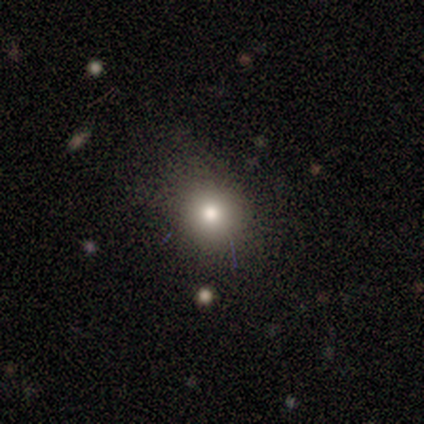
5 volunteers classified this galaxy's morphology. A smooth galaxy with no disk features (60%) that is round (100%). Merging: minor disturbance (50%).